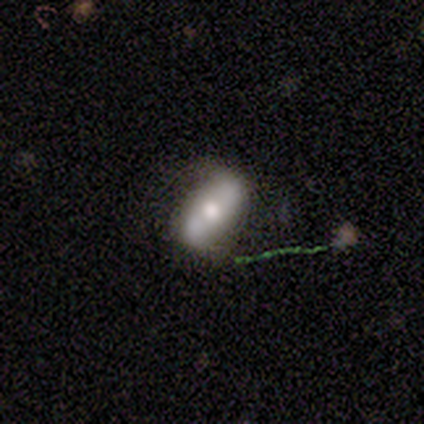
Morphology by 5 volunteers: Smooth or featured?
  - smooth: 40% * (tied)
  - featured or disk: 40% * (tied)
  - star or artifact: 20%
How rounded?
  - in between: 100% *
  - round: 0%
  - cigar-shaped: 0%
Merging?
  - none: 75% *
  - merger: 25%
  - minor disturbance: 0%
  - major disturbance: 0%